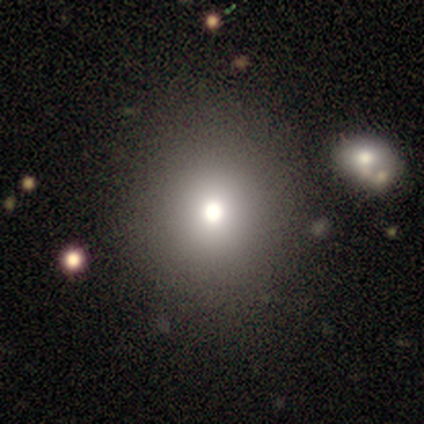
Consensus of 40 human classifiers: This is clearly a smooth galaxy (85%). How rounded: clearly round (88%). Merging: likely none (78%).